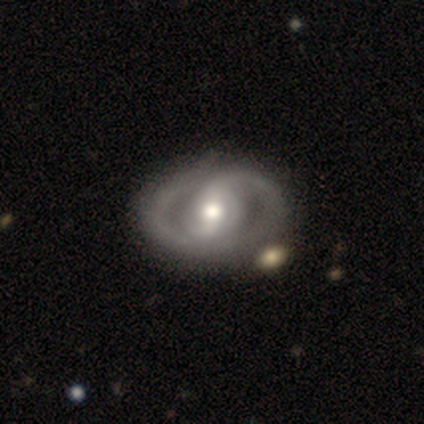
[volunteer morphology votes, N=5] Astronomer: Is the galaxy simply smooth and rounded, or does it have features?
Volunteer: featured or disk — 100%.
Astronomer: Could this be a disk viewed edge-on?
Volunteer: no — 100%.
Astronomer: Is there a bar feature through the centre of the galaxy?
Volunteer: strong — 60% (runner-up: weak, 40%).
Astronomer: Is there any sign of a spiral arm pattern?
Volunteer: yes — 80%.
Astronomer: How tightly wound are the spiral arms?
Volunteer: tight — 50%.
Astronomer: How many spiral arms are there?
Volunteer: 2 — 100%.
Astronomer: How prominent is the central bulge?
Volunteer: large — 40%, tied with moderate at 40%.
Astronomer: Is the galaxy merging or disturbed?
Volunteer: none — 80%.